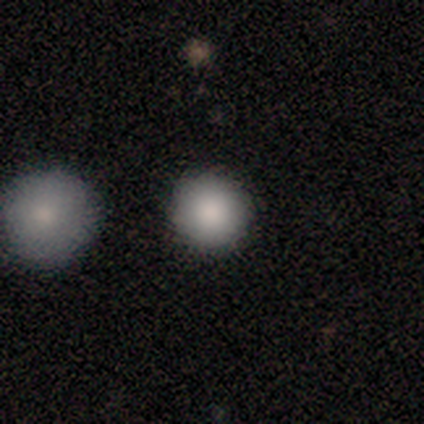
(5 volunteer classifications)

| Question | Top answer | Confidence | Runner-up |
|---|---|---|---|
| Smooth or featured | smooth | 80% | featured or disk (20%) |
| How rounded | round | 100% | — |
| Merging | none | 100% | — |